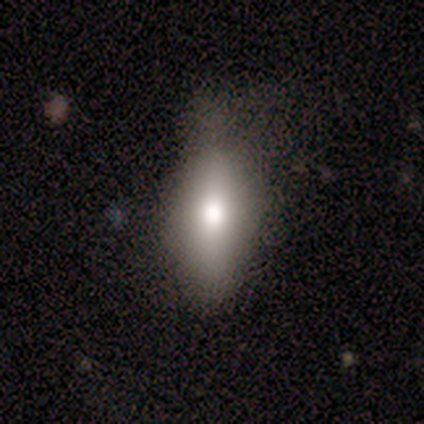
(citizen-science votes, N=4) Overall: smooth (75%). How rounded: in between (67%; cigar-shaped 33%). Merging: minor disturbance (75%).